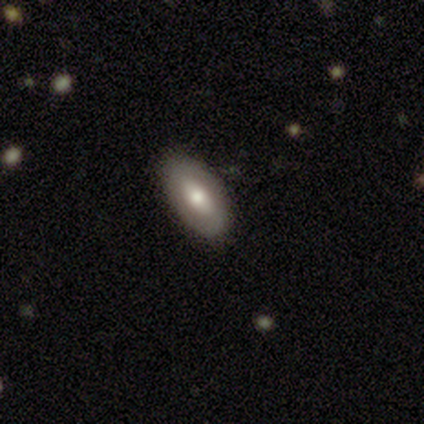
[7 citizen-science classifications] smooth_or_featured: smooth (p=0.57) [alt: featured or disk p=0.43]
how_rounded: in between (p=1.00)
merging: none (p=1.00)